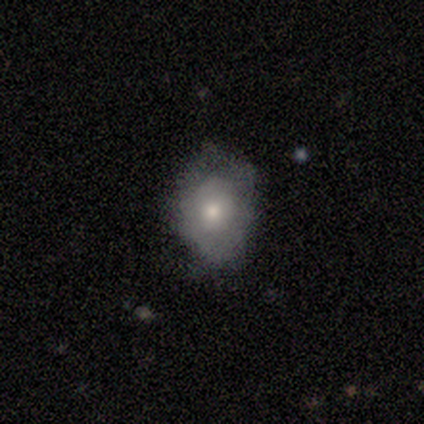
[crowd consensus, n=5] smooth_or_featured: smooth (p=0.60) [alt: featured or disk p=0.40]
how_rounded: in between (p=0.67) [alt: round p=0.33]
merging: none (p=0.80) [alt: major disturbance p=0.20]